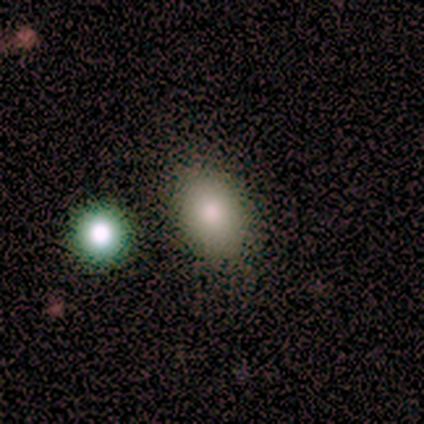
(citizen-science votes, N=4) A smooth galaxy with no disk features (100%) that is in between round and cigar-shaped (75%).

Vote fractions:
- Smooth or featured? smooth: 100% / featured or disk: 0% / star or artifact: 0%
- How rounded? in between: 75% / round: 25% / cigar-shaped: 0%
- Merging? none: 50% (tied) / minor disturbance: 50% (tied) / major disturbance: 0% / merger: 0%